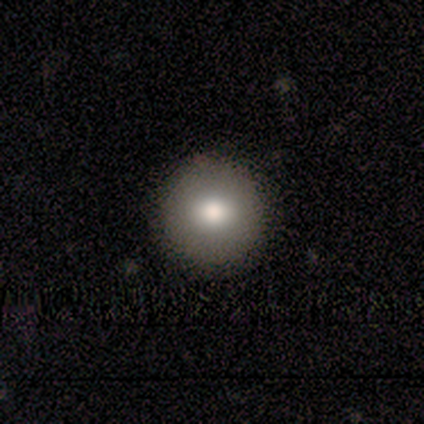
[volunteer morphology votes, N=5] type=smooth (80%); roundness=round (100%); merging=none (100%).